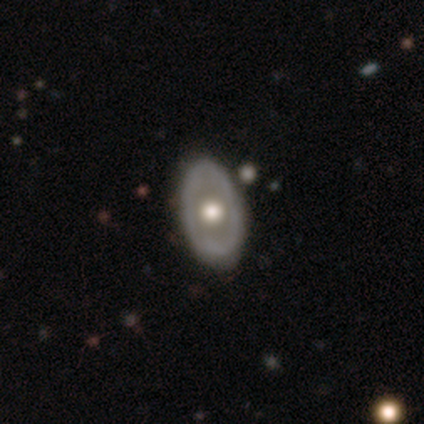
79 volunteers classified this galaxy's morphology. Volunteers were most divided on "bulge size": moderate: 56%, large: 31%, dominant: 6%, small: 4%, none: 2%. Remaining: bar — no (98%); spiral arms — no (94%); edge-on disk — no (92%); smooth or featured — featured or disk (66%); merging — none (41%).